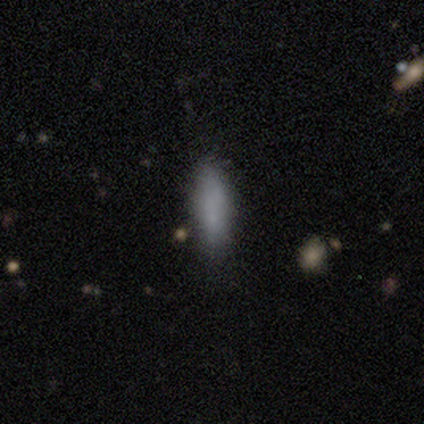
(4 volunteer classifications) This is clearly a smooth galaxy (100%). How rounded: likely in between (75%). Merging: likely none (75%).